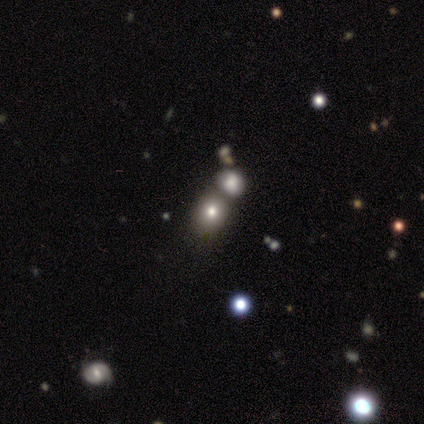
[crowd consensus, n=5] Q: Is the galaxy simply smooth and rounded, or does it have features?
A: smooth — 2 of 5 (40%, tied with featured or disk).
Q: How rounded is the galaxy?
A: round — 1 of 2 (50%, tied with in between).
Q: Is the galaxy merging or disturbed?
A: merger — 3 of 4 (75%).